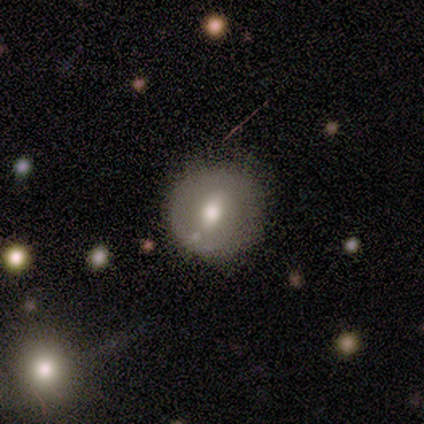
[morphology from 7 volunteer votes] Q: Smooth or featured?
A: featured or disk (57%); runner-up: smooth (29%)
Q: Edge-on disk?
A: no (75%); runner-up: yes (25%)
Q: Bar?
A: weak (67%); runner-up: no (33%)
Q: Spiral arms?
A: no (100%)
Q: Bulge size?
A: moderate (67%); runner-up: large (33%)
Q: Merging?
A: minor disturbance (67%); runner-up: none (17%)